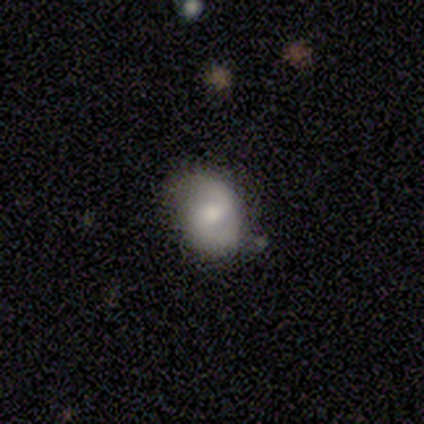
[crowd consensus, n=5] Volunteers were most divided on "spiral winding" (2-way tie): medium: 50%, loose: 50%, tight: 0%. More confident: edge-on disk — no (100%); spiral arms — yes (100%); spiral arm count — 2 (100%); smooth or featured — featured or disk (80%); bar — weak (75%); bulge size — small (75%); merging — minor disturbance (60%).